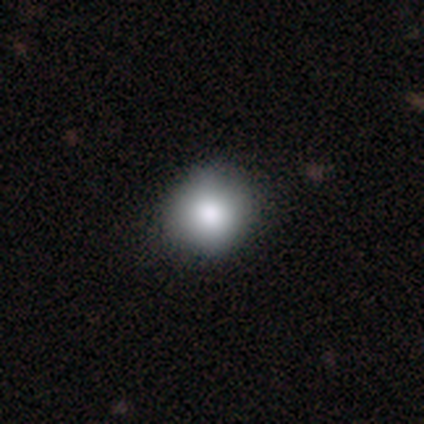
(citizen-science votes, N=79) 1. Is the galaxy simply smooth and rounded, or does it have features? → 81% smooth, 13% star or artifact, 6% featured or disk.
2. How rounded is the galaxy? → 88% round, 12% in between, 0% cigar-shaped.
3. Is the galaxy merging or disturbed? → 42% none, 7% minor disturbance, 3% major disturbance, 3% merger.